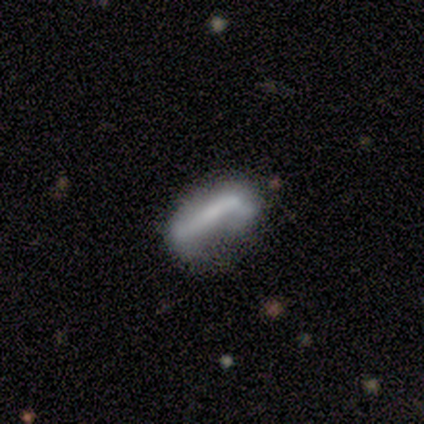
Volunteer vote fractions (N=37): featured or disk 54%, smooth 41%, star or artifact 5%. Down the decision tree: edge-on disk — no (80%); bar — strong (56%); spiral arms — no (69%); bulge size — none (50%); merging — minor disturbance (34%).